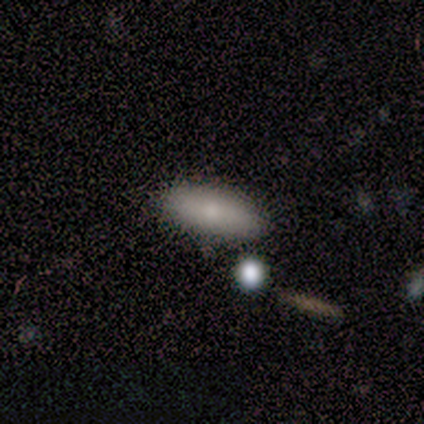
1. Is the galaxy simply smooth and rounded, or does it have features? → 75% smooth, 25% star or artifact, 0% featured or disk.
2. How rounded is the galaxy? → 67% in between, 33% cigar-shaped, 0% round.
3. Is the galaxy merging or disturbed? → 100% none, 0% minor disturbance, 0% major disturbance, 0% merger.